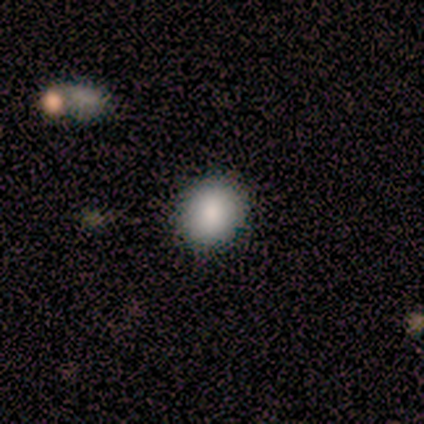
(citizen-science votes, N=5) This is clearly a smooth galaxy (80%). How rounded: clearly round (100%). Merging: clearly none (100%).